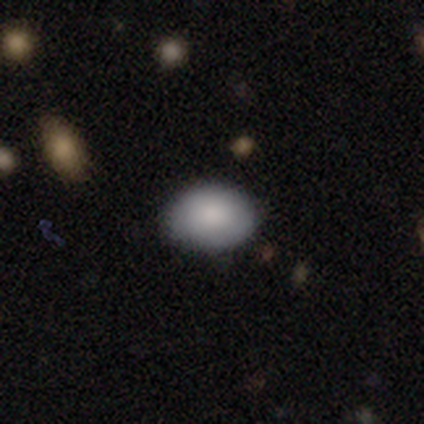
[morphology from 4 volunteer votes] smooth-or-featured: smooth: 75% | featured or disk: 25% | star or artifact: 0%
  how-rounded: in between: 100% | round: 0% | cigar-shaped: 0%
  merging: none: 50% | minor disturbance: 25% | merger: 25% | major disturbance: 0%